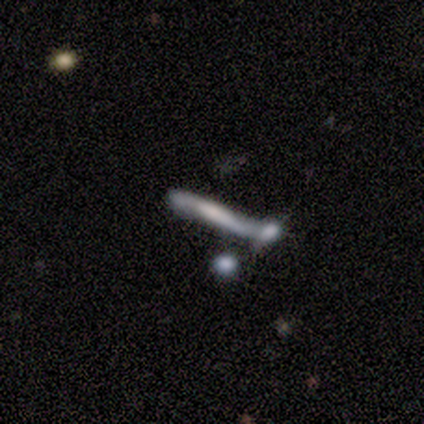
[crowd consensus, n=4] Volunteers were most divided on "smooth or featured" (2-way tie): smooth: 50%, featured or disk: 50%, star or artifact: 0%. More confident: how rounded — cigar-shaped (100%); merging — minor disturbance (50%).